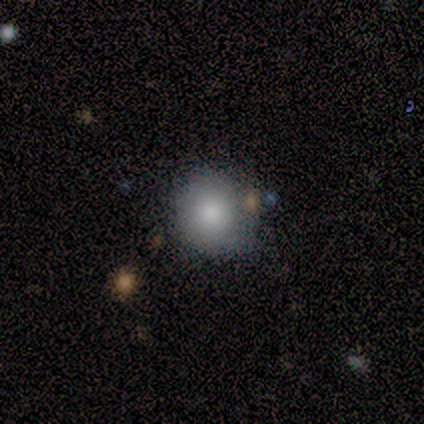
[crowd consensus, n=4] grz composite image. It shows a smooth galaxy with no disk features (50%) that is round (100%). Merging: none (100%).